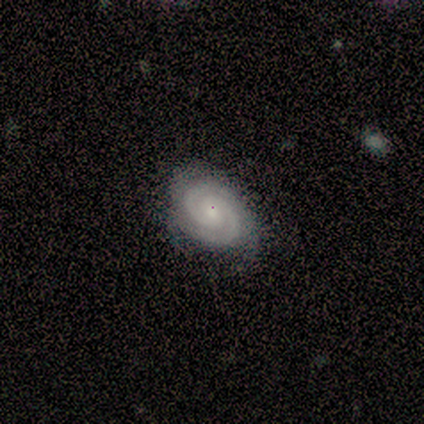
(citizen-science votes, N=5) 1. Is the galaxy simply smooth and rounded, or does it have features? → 80% featured or disk, 20% smooth, 0% star or artifact.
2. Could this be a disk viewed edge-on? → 100% no, 0% yes.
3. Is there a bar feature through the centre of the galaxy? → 50% weak (tied), 50% no (tied), 0% strong.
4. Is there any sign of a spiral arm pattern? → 100% yes, 0% no.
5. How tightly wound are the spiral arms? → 100% tight, 0% medium, 0% loose.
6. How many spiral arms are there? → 100% 2, 0% 1, 0% 3, 0% 4, 0% more than 4, 0% can't tell.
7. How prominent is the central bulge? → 75% small, 25% moderate, 0% dominant, 0% large, 0% none.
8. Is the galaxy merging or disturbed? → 80% none, 20% minor disturbance, 0% major disturbance, 0% merger.